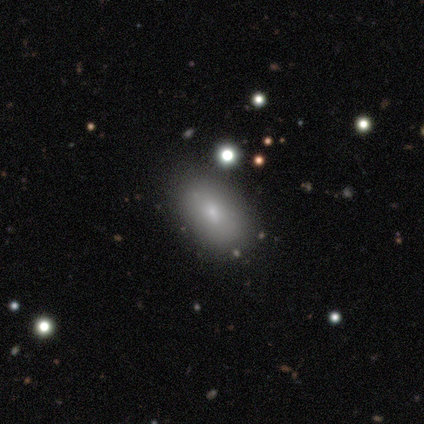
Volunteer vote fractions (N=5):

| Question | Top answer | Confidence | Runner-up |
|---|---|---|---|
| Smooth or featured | smooth | 80% | featured or disk (20%) |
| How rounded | in between | 100% | — |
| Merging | none | 80% | minor disturbance (20%) |